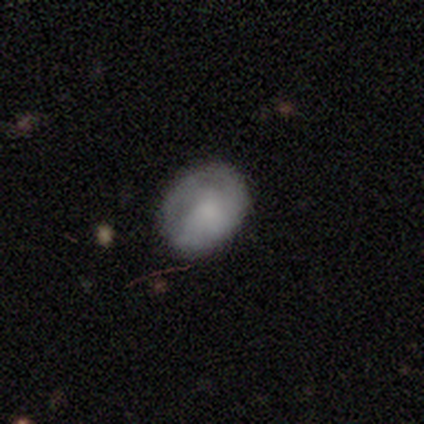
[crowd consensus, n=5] Volunteers were most divided on "spiral winding" (2-way tie): tight: 50%, medium: 50%, loose: 0%; "spiral arm count" (2-way tie): 2: 50%, can't tell: 50%, 1: 0%, 3: 0%, 4: 0%, more than 4: 0%. More confident: edge-on disk — no (100%); bar — no (100%); spiral arms — yes (67%); bulge size — moderate (67%); smooth or featured — featured or disk (60%); merging — none (60%).